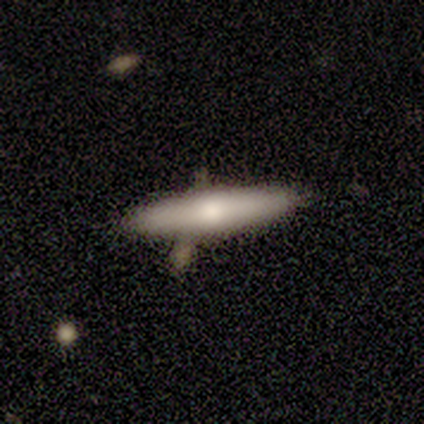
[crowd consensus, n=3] Overall: featured or disk (67%; smooth 33%). Edge-on disk: yes (100%). Edge-on bulge: rounded (100%). Merging: none (67%; merger 33%).